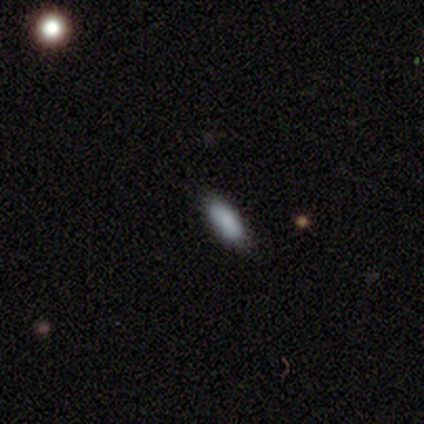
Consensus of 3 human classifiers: Smooth or featured? 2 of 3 (67%) said smooth. How rounded? 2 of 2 (100%) said cigar-shaped. Merging? 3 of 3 (100%) said none.